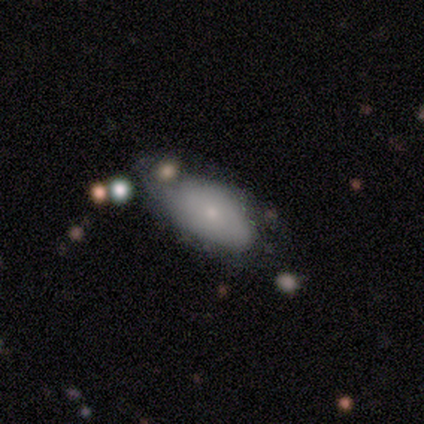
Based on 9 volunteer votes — A smooth galaxy with no disk features (67%) that is in between round and cigar-shaped (100%).

Vote fractions:
- Smooth or featured? smooth: 67% / featured or disk: 22% / star or artifact: 11%
- How rounded? in between: 100% / round: 0% / cigar-shaped: 0%
- Merging? none: 50% / minor disturbance: 25% / major disturbance: 25% / merger: 0%